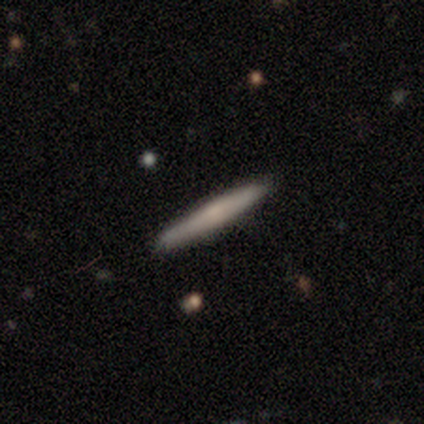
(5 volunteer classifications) Q: Smooth or featured?
A: smooth (80%); runner-up: featured or disk (20%)
Q: How rounded?
A: cigar-shaped (100%)
Q: Merging?
A: none (100%)